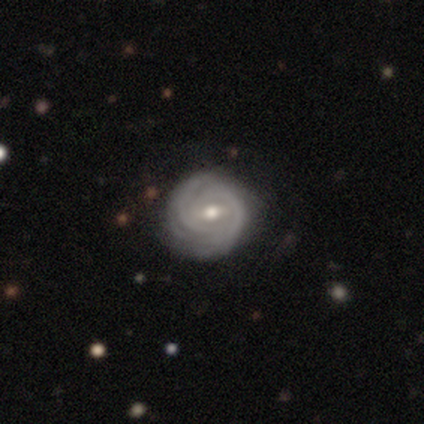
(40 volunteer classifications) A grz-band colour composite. It shows a featured or disk galaxy (98%) with a weak bar (66%), tight (76%) spiral arms (97%) and a moderate central bulge (84%). Merging: none (68%).